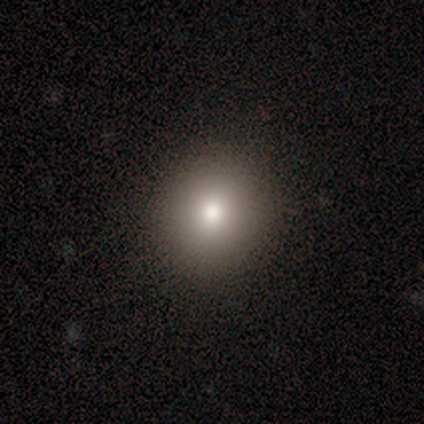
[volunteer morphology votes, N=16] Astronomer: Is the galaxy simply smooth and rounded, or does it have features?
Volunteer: smooth — 88%.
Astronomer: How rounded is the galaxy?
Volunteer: round — 79%.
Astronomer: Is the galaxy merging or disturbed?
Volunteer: none — 100%.